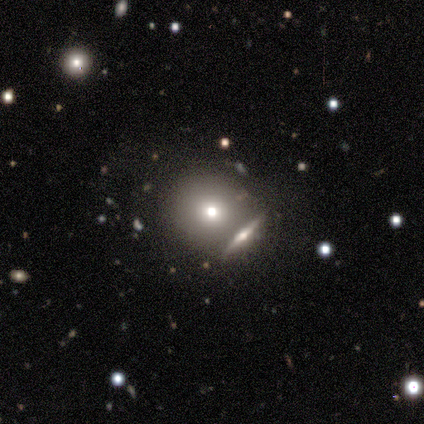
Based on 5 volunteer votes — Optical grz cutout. It shows a smooth galaxy with no disk features (100%) that is round (100%). Merging: merger (60%).